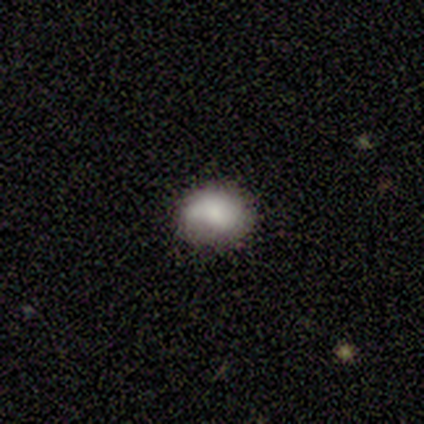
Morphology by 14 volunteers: This appears to be a smooth galaxy with no disk features (86%) that is in between round and cigar-shaped (75%). Merging: none (46%).